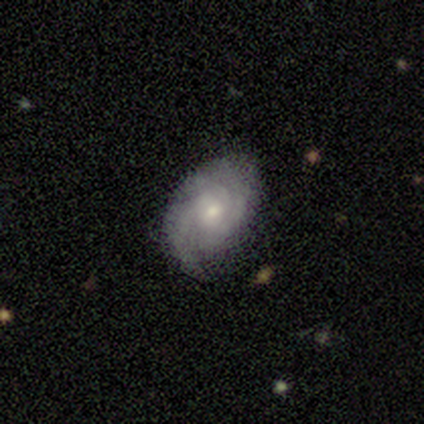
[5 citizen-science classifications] Morphology: type=featured or disk (80%); edge-on=no (100%); bar=no (75%); spiral arms=yes (75%); winding=medium (67%); arm count=can't tell (67%); bulge=small (75%); merging=none (60%).